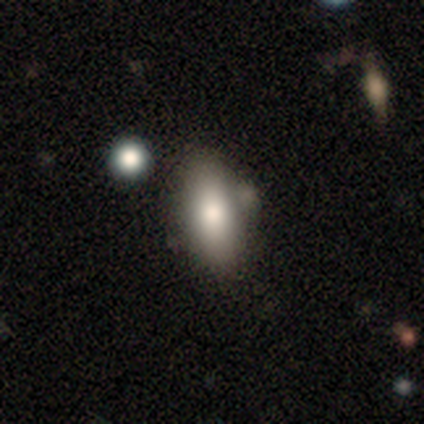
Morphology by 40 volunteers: Smooth or featured? smooth (75%)
How rounded? in between (93%)
Merging? none (74%)